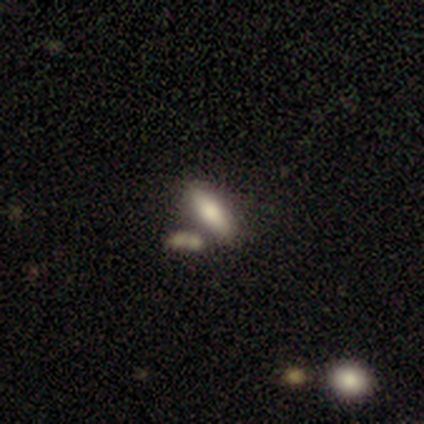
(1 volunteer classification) smooth 100%, featured or disk 0%, star or artifact 0%. Down the decision tree: how rounded — cigar-shaped (100%); merging — minor disturbance (100%).